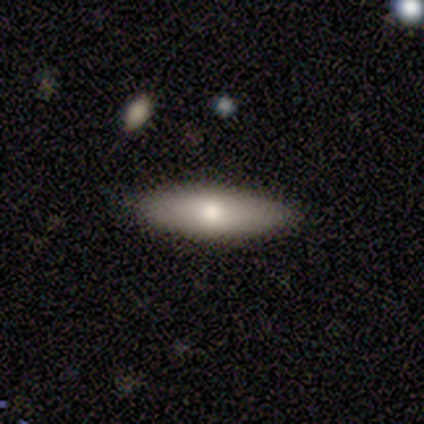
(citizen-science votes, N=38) Smooth or featured: smooth — 58% (featured or disk — 29%)
How rounded: in between — 68% (cigar-shaped — 32%)
Merging: none — 94% (minor disturbance — 6%)